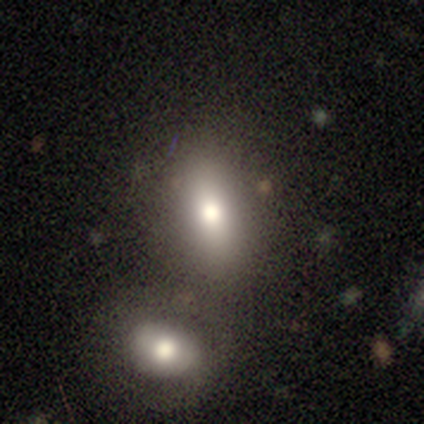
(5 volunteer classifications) Smooth or featured? 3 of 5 (60%) said smooth. How rounded? 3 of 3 (100%) said in between. Merging? 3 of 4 (75%) said none.